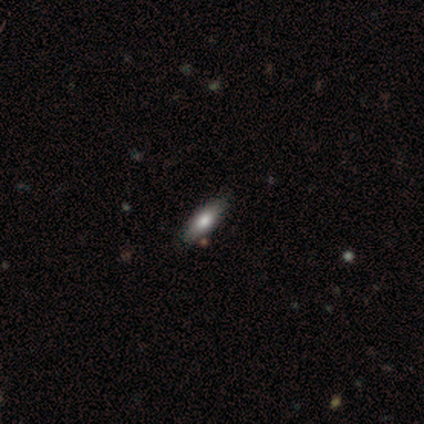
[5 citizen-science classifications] Smooth or featured? 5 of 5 (100%) said smooth. How rounded? 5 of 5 (100%) said in between. Merging? 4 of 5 (80%) said none.